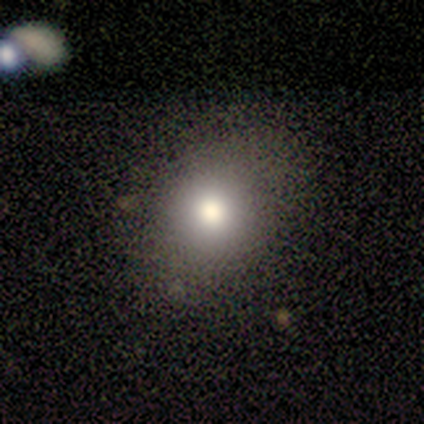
smooth-or-featured: smooth: 100% | featured or disk: 0% | star or artifact: 0%
  how-rounded: round: 60% | in between: 40% | cigar-shaped: 0%
  merging: none: 100% | minor disturbance: 0% | major disturbance: 0% | merger: 0%